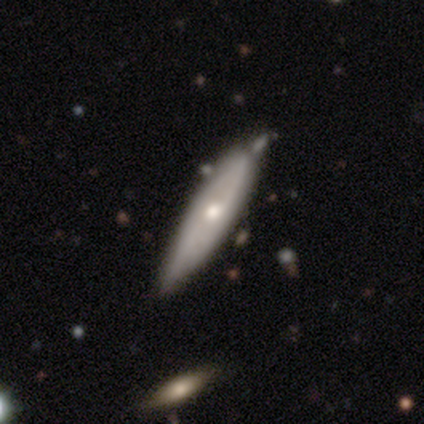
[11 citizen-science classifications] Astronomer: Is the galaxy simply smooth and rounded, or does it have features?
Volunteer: featured or disk — 73%.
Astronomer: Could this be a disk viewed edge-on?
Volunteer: yes — 50%, tied with no at 50%.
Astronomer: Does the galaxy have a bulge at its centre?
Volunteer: rounded — 100%.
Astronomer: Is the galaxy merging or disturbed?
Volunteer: none — 55% (runner-up: minor disturbance, 36%).